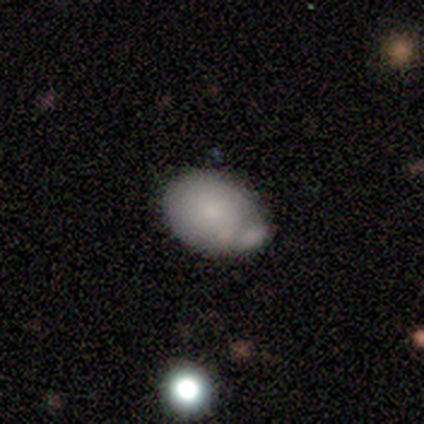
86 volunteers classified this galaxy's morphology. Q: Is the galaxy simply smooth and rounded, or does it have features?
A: smooth — 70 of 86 (81%).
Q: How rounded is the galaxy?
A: in between — 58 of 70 (83%).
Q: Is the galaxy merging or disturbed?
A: none — 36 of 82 (44%).